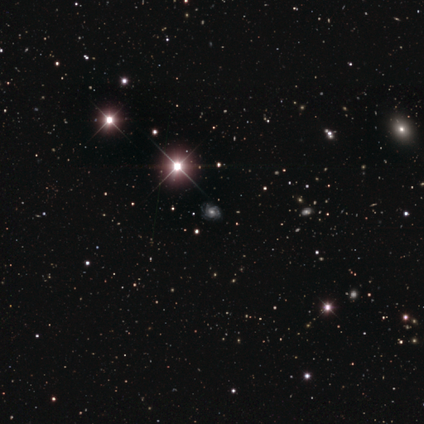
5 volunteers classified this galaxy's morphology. A star or artifact, not a galaxy (80%).

Vote fractions:
- Smooth or featured? star or artifact: 80% / featured or disk: 20% / smooth: 0%